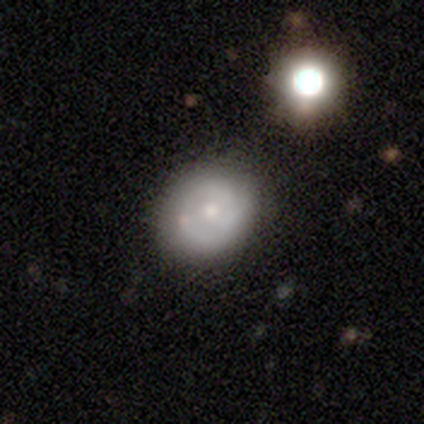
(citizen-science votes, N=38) Morphology: type=featured or disk (45%); edge-on=no (94%); bar=no (94%); spiral arms=no (69%); bulge=small (56%); merging=none (58%).